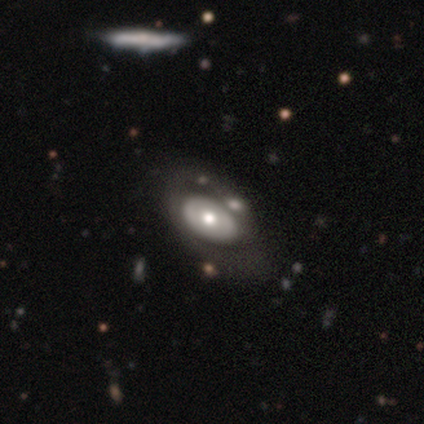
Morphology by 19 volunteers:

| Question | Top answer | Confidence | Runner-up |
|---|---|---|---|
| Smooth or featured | featured or disk | 68% | smooth (32%) |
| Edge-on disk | no | 100% | — |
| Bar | no | 92% | strong (8%) |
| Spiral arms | no | 62% | yes (38%) |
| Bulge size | moderate | 69% | small (23%) |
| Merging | none | 58% | major disturbance (21%) |